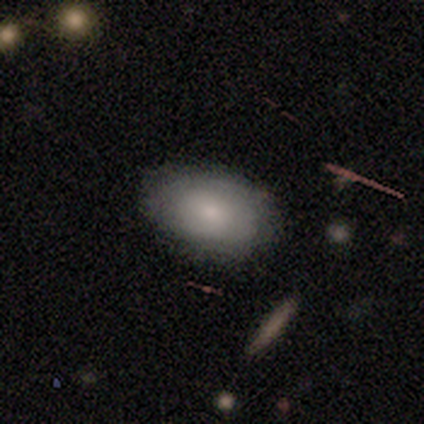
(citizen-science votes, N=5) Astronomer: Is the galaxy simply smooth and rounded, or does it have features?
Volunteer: smooth — 80%.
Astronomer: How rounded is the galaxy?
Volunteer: in between — 75%.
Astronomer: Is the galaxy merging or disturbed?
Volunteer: none — 100%.